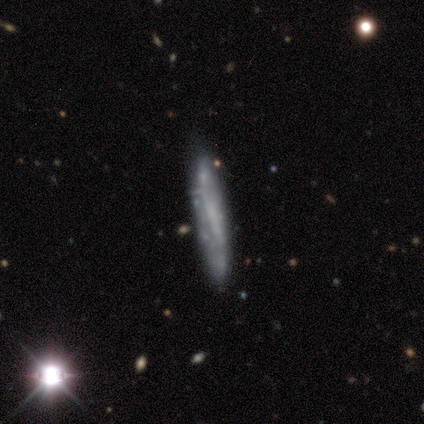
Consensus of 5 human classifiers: This is clearly a smooth galaxy (80%). How rounded: clearly cigar-shaped (100%). Merging: clearly none (80%).